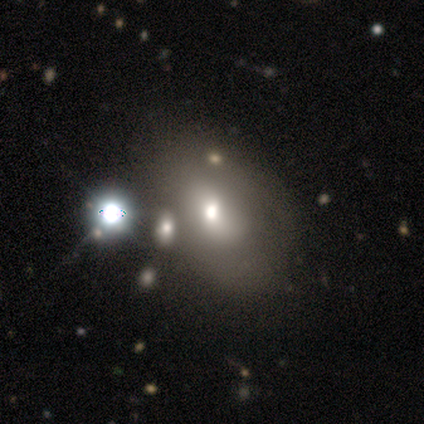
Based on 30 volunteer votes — smooth-or-featured: smooth: 60% | featured or disk: 27% | star or artifact: 13%
  how-rounded: in between: 67% | round: 33% | cigar-shaped: 0%
  merging: none: 31% | minor disturbance: 23% | major disturbance: 23% | merger: 23%